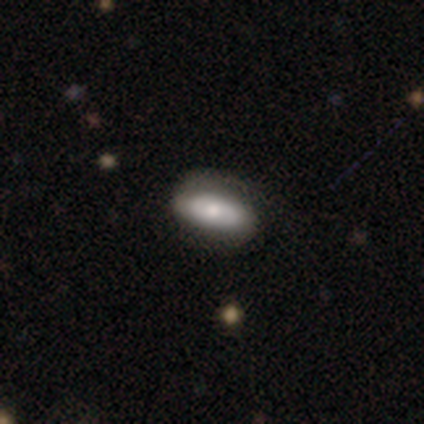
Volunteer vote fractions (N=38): smooth 58%, featured or disk 37%, star or artifact 5%. Down the decision tree: how rounded — in between (91%); merging — none (72%).